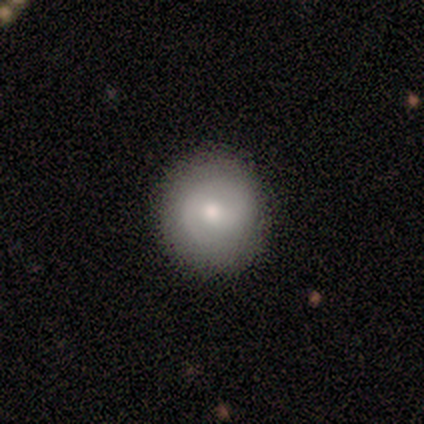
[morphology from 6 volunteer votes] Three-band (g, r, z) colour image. It shows a smooth galaxy with no disk features (50%, tied with featured or disk) that is round (100%). Merging: none (83%).